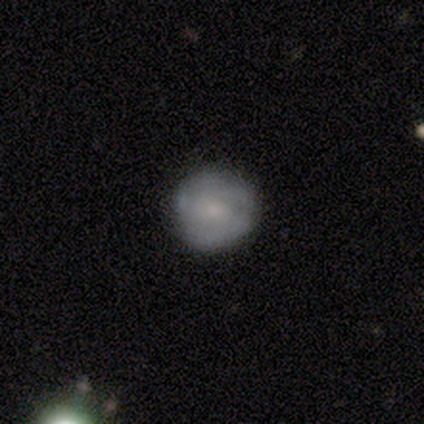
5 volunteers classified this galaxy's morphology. This appears to be a smooth galaxy with no disk features (60%) that is round (100%). Merging: none (100%).